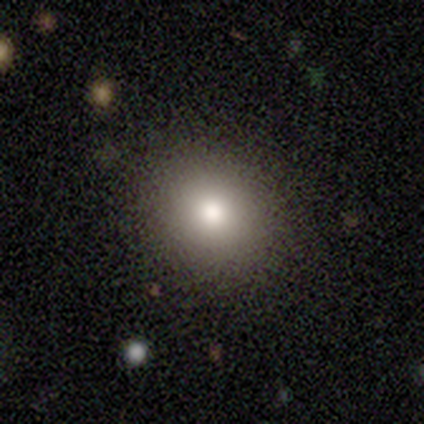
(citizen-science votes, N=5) This is likely a smooth galaxy (60%). How rounded: likely round (67%). Merging: clearly none (100%).